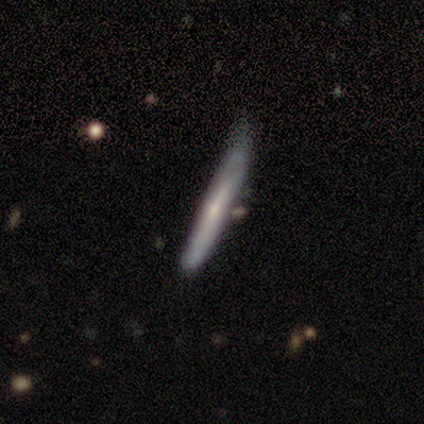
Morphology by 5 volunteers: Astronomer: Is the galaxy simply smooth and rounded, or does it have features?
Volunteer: featured or disk — 80%.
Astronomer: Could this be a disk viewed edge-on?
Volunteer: yes — 100%.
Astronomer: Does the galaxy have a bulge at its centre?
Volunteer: none — 75%.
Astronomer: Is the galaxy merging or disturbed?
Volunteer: none — 80%.